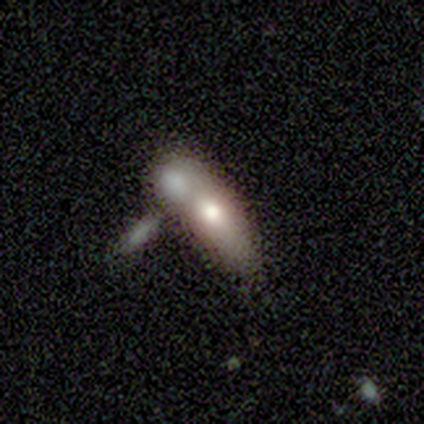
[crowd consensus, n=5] smooth_or_featured: smooth (p=0.80) [alt: featured or disk p=0.20]
how_rounded: in between (p=0.75) [alt: cigar-shaped p=0.25]
merging: merger (p=1.00)